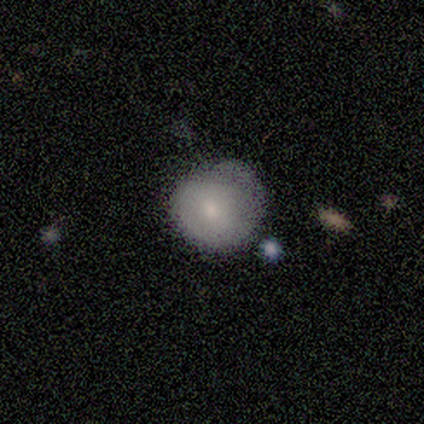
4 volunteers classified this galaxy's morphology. Overall: smooth (100%). How rounded: round (100%). Merging: minor disturbance (75%).